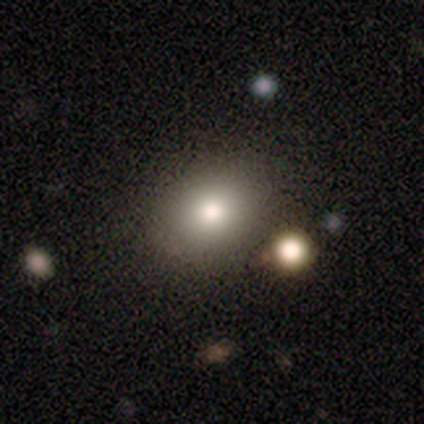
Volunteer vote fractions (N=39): Smooth or featured: smooth — 79% (star or artifact — 13%)
How rounded: round — 52% (in between — 48%)
Merging: none — 85% (minor disturbance — 12%)